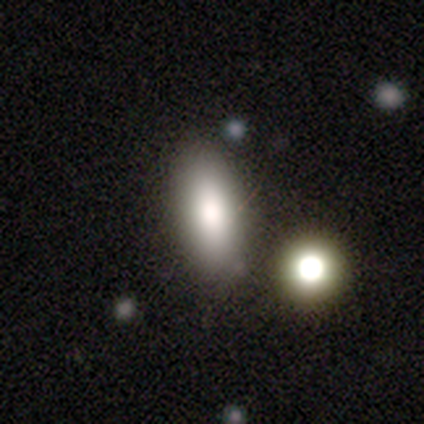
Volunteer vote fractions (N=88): Morphology: type=smooth (77%); roundness=in between (78%); merging=none (73%).